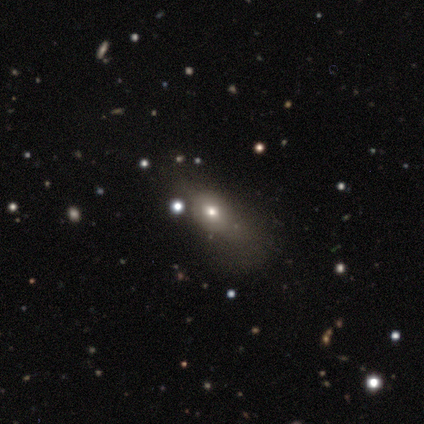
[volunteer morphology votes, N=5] Smooth or featured?
  - smooth: 40% * (tied)
  - star or artifact: 40% * (tied)
  - featured or disk: 20%
How rounded?
  - in between: 100% *
  - round: 0%
  - cigar-shaped: 0%
Merging?
  - none: 67% *
  - minor disturbance: 33%
  - major disturbance: 0%
  - merger: 0%